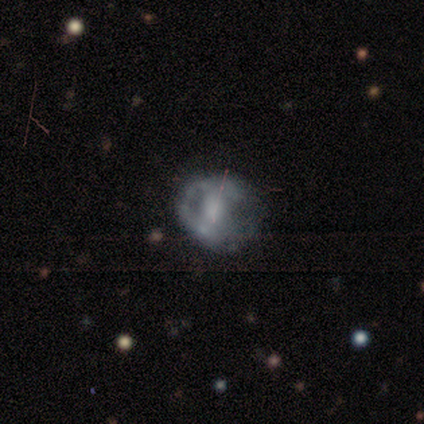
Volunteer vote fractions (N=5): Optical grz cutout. It shows a featured or disk galaxy (60%) with a strong bar (100%), no spiral arms (67%) and a moderate central bulge (67%). Merging: minor disturbance (80%).